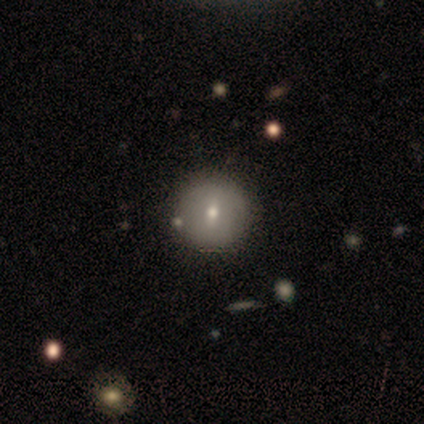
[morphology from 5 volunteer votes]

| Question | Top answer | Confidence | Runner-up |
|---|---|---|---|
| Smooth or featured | smooth | 80% | featured or disk (20%) |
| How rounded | round | 75% | in between (25%) |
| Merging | none | 60% | minor disturbance (40%) |